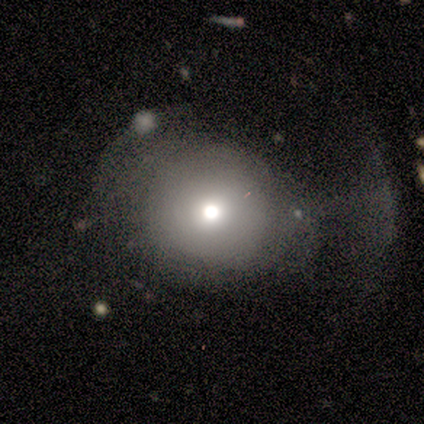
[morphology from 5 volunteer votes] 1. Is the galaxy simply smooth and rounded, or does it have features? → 80% smooth, 20% star or artifact, 0% featured or disk.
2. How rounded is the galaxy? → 100% round, 0% in between, 0% cigar-shaped.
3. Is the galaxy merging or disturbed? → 50% none (tied), 50% major disturbance (tied), 0% minor disturbance, 0% merger.